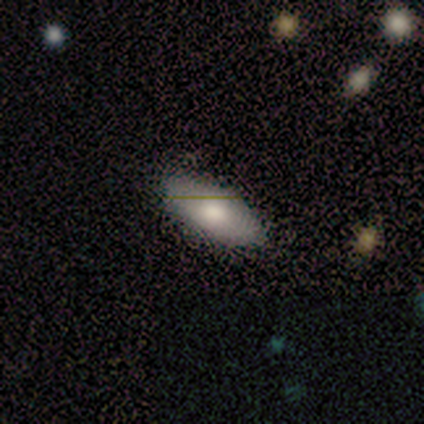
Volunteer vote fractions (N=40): Volunteers were most divided on "smooth or featured": smooth: 78%, featured or disk: 20%, star or artifact: 2%. More confident: how rounded — in between (97%); merging — none (85%).